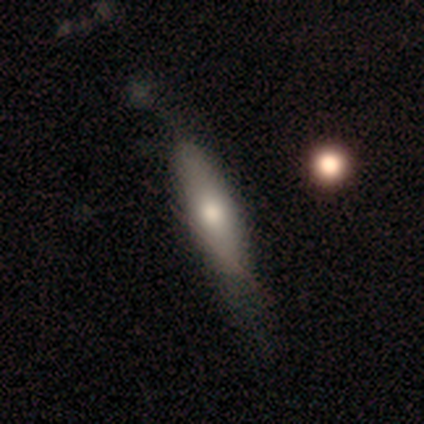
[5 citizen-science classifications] This appears to be a smooth galaxy with no disk features (60%) that is in between round and cigar-shaped (100%). Merging: none (60%).